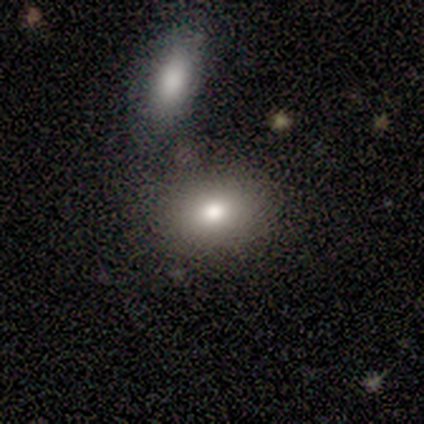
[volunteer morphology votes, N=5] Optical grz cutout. It shows a smooth galaxy with no disk features (100%) that is in between round and cigar-shaped (80%). Merging: none (80%).